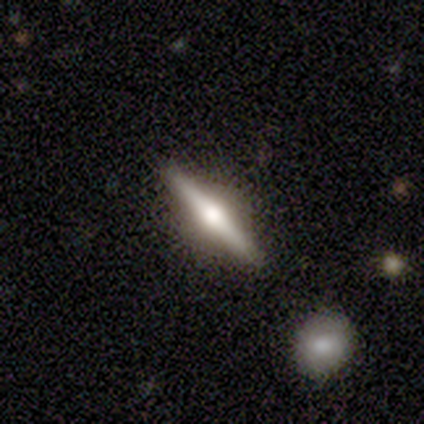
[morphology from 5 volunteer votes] featured or disk 60%, smooth 20%, star or artifact 20%. Down the decision tree: edge-on disk — yes (100%); edge-on bulge — rounded (100%); merging — none (100%).